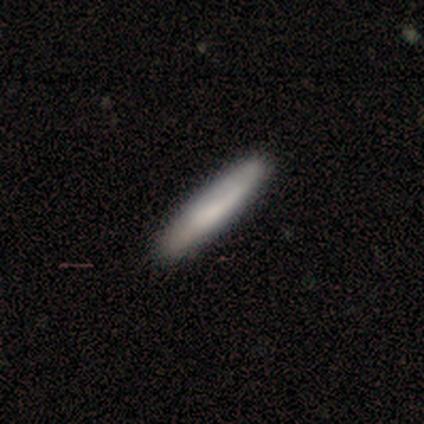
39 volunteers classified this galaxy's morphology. Smooth or featured: smooth — 74% (featured or disk — 21%)
How rounded: cigar-shaped — 90% (in between — 10%)
Merging: none — 54% (minor disturbance — 14%)